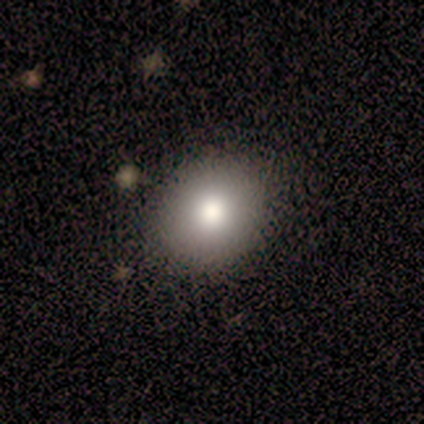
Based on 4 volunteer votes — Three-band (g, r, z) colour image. It shows a smooth galaxy with no disk features (100%) that is round (75%). Merging: none (75%).